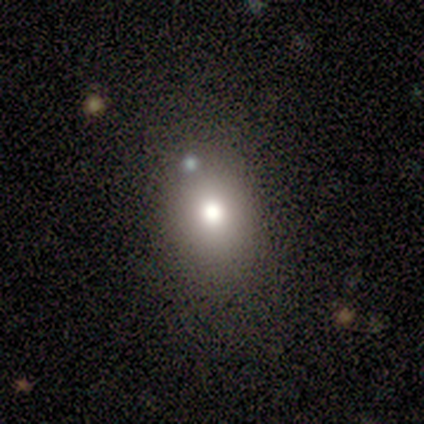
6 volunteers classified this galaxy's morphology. Overall: smooth (50%, tied with star or artifact). How rounded: in between (67%; round 33%). Merging: minor disturbance (67%; none 33%).